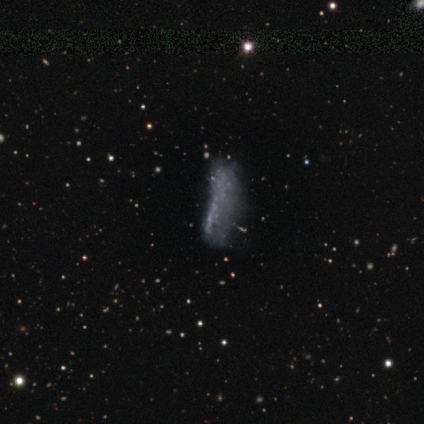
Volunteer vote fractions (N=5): Smooth or featured?
  - featured or disk: 80% *
  - smooth: 20%
  - star or artifact: 0%
Edge-on disk?
  - no: 75% *
  - yes: 25%
Bar?
  - no: 100% *
  - strong: 0%
  - weak: 0%
Spiral arms?
  - no: 67% *
  - yes: 33%
Bulge size?
  - none: 100% *
  - dominant: 0%
  - large: 0%
  - moderate: 0%
  - small: 0%
Merging?
  - major disturbance: 60% *
  - none: 20%
  - minor disturbance: 20%
  - merger: 0%